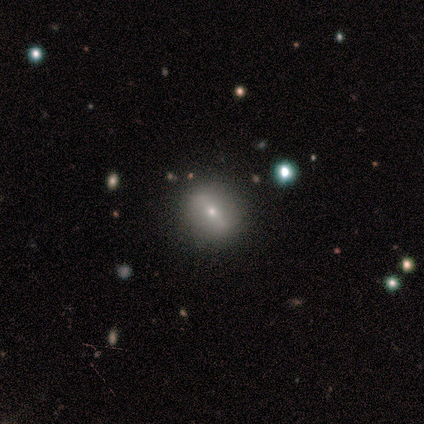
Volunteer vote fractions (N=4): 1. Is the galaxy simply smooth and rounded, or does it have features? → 50% featured or disk, 25% smooth, 25% star or artifact.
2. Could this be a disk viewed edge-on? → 100% no, 0% yes.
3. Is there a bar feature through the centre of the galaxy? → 50% strong (tied), 50% weak (tied), 0% no.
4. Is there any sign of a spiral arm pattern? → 100% no, 0% yes.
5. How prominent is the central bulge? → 100% small, 0% dominant, 0% large, 0% moderate, 0% none.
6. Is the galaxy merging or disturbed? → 100% none, 0% minor disturbance, 0% major disturbance, 0% merger.